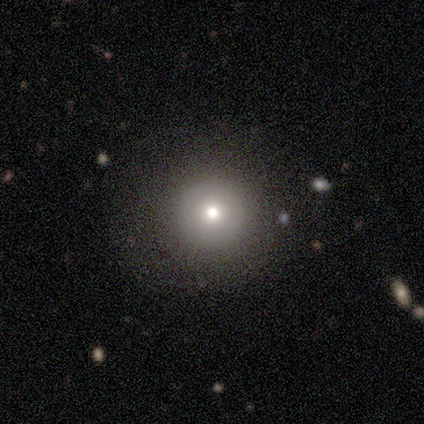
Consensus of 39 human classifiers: Volunteers were most divided on "smooth or featured": smooth: 67%, star or artifact: 23%, featured or disk: 10%. More confident: how rounded — round (96%); merging — none (90%).